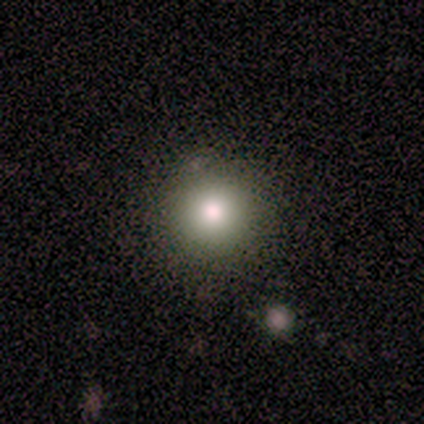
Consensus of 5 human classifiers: Smooth or featured? 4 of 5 (80%) said star or artifact.